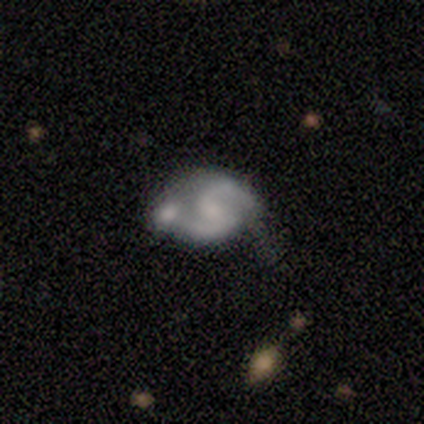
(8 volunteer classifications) This is clearly a featured or disk galaxy (100%). It is clearly not viewed edge-on (100%). Bar: possibly weak (50%, tied with no). Spiral arm pattern: clearly yes (100%). Spiral arm count: clearly 2 (88%). Spiral winding: likely medium (62%). Central bulge: likely small (62%). Merging: marginally none (38%, tied with merger).